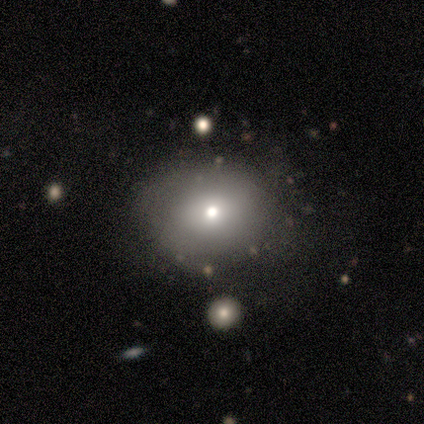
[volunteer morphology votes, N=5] A smooth galaxy with no disk features (100%) that is round (60%). Merging: none (60%).